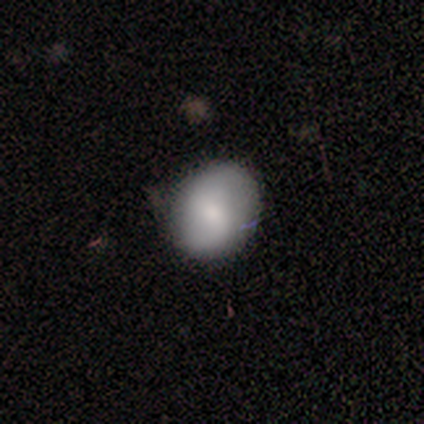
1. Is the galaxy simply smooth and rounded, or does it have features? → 80% smooth, 20% featured or disk, 0% star or artifact.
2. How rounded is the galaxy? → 50% round (tied), 50% in between (tied), 0% cigar-shaped.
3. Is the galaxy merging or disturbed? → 100% none, 0% minor disturbance, 0% major disturbance, 0% merger.